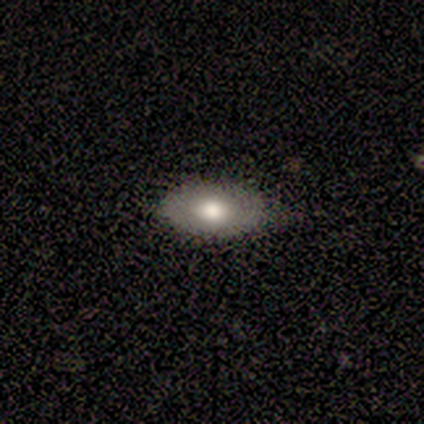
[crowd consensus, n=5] A smooth galaxy with no disk features (80%) that is in between round and cigar-shaped (100%). Merging: none (75%).